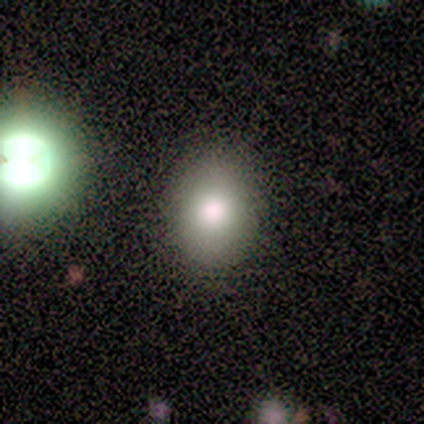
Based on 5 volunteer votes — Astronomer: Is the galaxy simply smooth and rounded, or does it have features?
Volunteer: smooth — 80%.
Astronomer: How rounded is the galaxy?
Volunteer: round — 50%, tied with in between at 50%.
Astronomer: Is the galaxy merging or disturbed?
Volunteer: none — 80%.